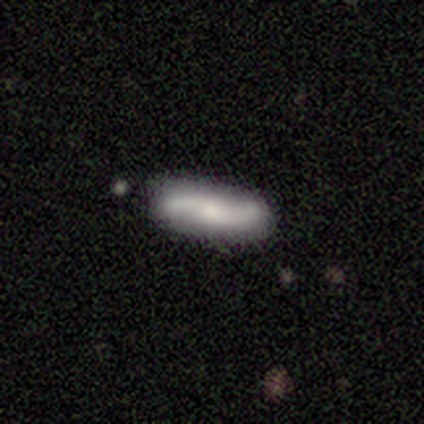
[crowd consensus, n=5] smooth_or_featured: featured or disk (p=0.80) [alt: smooth p=0.20]
disk_edge_on: no (p=1.00)
bar: no (p=0.75) [alt: weak p=0.25]
has_spiral_arms: yes (p=1.00)
spiral_winding: loose (p=1.00)
spiral_arm_count: 2 (p=0.75) [alt: can't tell p=0.25]
bulge_size: large (p=0.25) [tied with: moderate p=0.25, small p=0.25, none p=0.25]
merging: none (p=0.80) [alt: minor disturbance p=0.20]